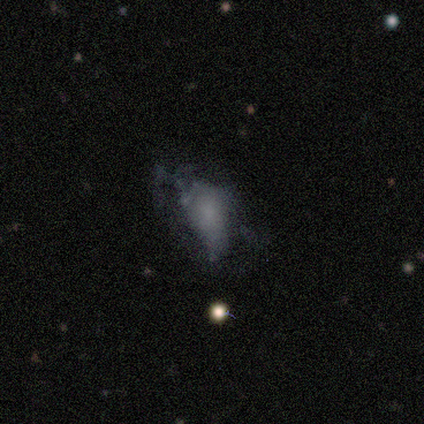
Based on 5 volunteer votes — Q: Smooth or featured?
A: smooth (60%); runner-up: featured or disk (40%)
Q: How rounded?
A: in between (67%); runner-up: round (33%)
Q: Merging?
A: major disturbance (60%); runner-up: none (20%)